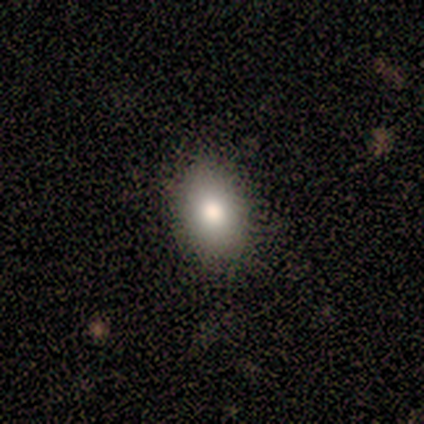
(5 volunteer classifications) Morphology: type=smooth (80%); roundness=round (50%, tied with in between); merging=none (100%).